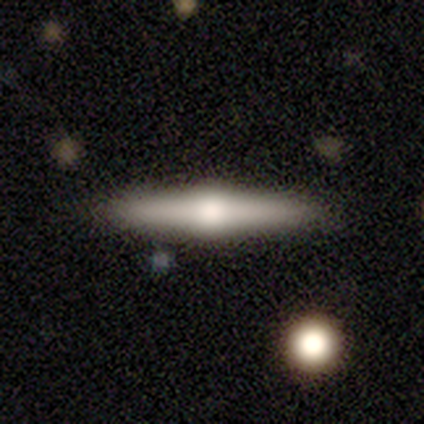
Smooth or featured? 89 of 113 (79%) said featured or disk. Edge-on disk? 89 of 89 (100%) said yes. Edge-on bulge? 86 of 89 (97%) said rounded. Merging? 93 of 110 (85%) said none.